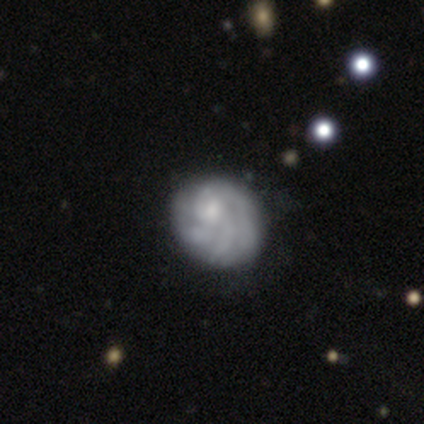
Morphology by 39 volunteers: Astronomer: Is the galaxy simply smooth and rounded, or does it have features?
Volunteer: featured or disk — 72%.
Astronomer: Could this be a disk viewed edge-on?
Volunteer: no — 96%.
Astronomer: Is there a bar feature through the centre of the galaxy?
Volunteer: no — 78%.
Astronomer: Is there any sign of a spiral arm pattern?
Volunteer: yes — 70%.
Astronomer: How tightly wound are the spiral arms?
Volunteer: tight — 89%.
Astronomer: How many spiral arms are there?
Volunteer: can't tell — 47%.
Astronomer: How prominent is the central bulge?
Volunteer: small — 44% (runner-up: moderate, 33%).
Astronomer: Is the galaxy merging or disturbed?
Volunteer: none — 51%.